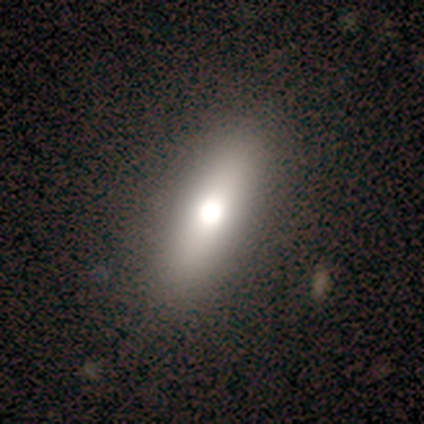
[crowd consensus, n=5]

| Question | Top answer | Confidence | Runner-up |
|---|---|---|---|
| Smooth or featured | smooth | 40% | tied: featured or disk (40%) |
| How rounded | in between | 100% | — |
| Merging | none | 75% | minor disturbance (25%) |